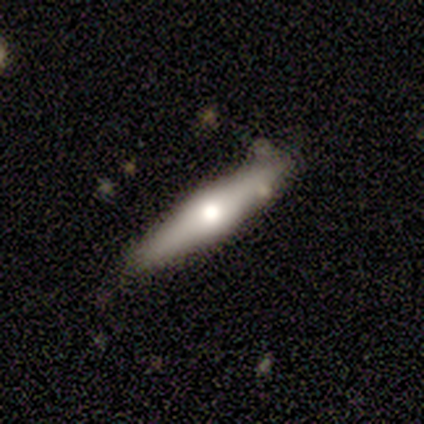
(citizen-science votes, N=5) Volunteers were most divided on "merging": none: 50%, minor disturbance: 25%, merger: 25%, major disturbance: 0%. More confident: edge-on disk — yes (100%); edge-on bulge — rounded (100%); smooth or featured — featured or disk (60%).